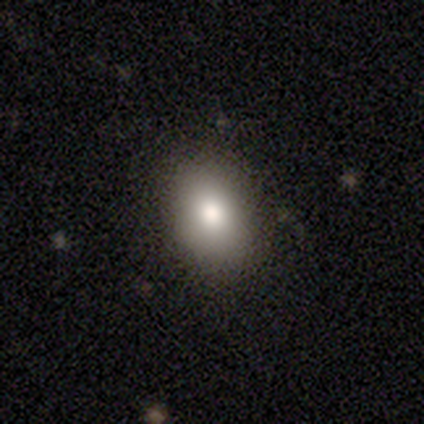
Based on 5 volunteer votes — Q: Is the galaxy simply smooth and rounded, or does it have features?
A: smooth — 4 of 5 (80%).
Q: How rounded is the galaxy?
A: in between — 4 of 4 (100%).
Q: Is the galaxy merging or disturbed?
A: none — 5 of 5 (100%).